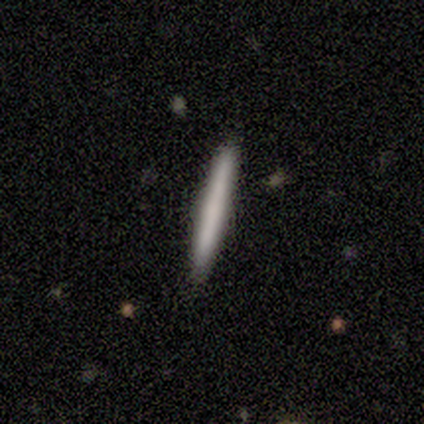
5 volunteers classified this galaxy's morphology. This is likely a smooth galaxy (60%). How rounded: clearly cigar-shaped (100%). Merging: clearly none (100%).